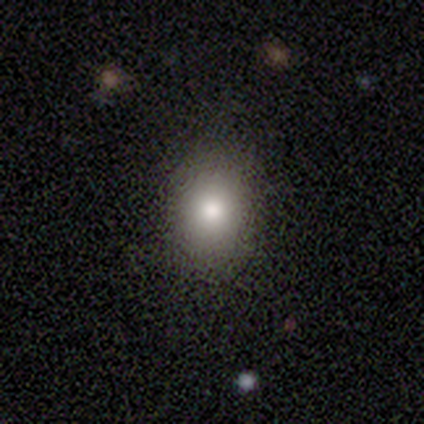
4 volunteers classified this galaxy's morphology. smooth 75%, featured or disk 25%, star or artifact 0%. Down the decision tree: how rounded — in between (67%); merging — none (100%).